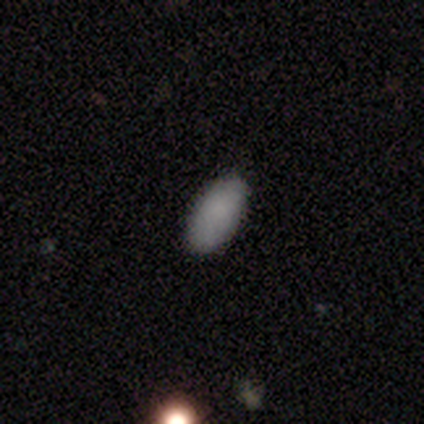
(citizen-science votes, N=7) Volunteers were most divided on "how rounded": in between: 86%, cigar-shaped: 14%, round: 0%. More confident: smooth or featured — smooth (100%); merging — none (86%).